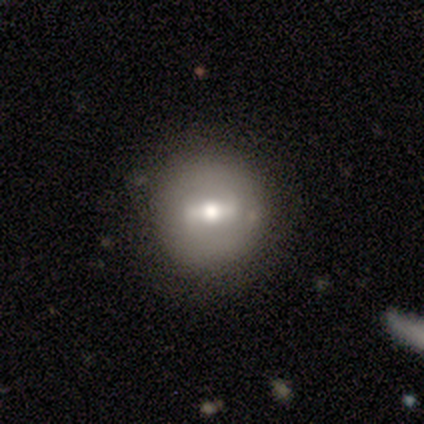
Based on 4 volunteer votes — Smooth or featured? 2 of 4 (50%) said star or artifact.